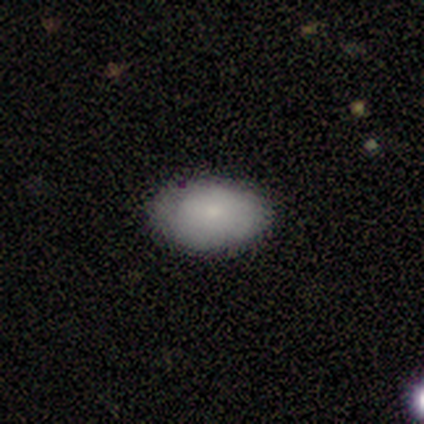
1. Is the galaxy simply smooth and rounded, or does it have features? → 60% smooth, 40% featured or disk, 0% star or artifact.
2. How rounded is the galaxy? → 100% in between, 0% round, 0% cigar-shaped.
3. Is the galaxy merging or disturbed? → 80% none, 20% minor disturbance, 0% major disturbance, 0% merger.